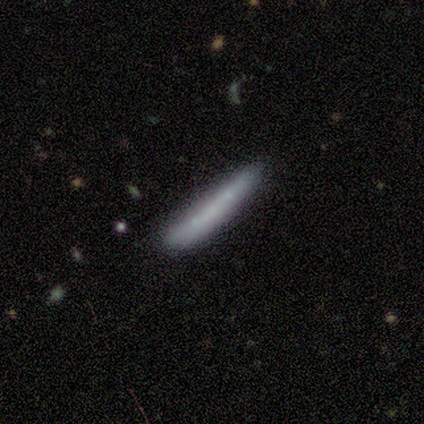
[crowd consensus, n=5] Smooth or featured? 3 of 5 (60%) said featured or disk. Edge-on disk? 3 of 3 (100%) said yes. Edge-on bulge? 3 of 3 (100%) said none. Merging? 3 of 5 (60%) said minor disturbance.